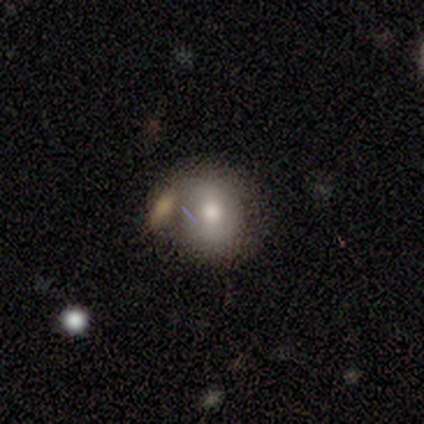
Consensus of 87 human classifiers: A smooth galaxy with no disk features (69%) that is round (82%). Merging: none (46%).